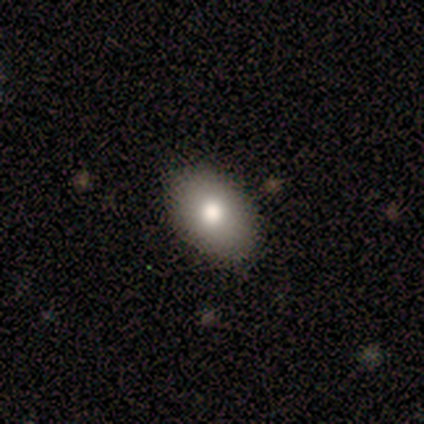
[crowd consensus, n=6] Smooth or featured? smooth (83%)
How rounded? in between (100%)
Merging? none (100%)